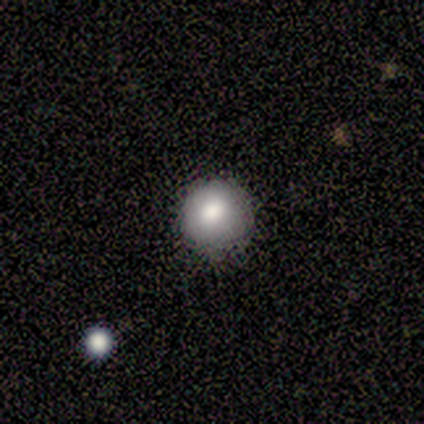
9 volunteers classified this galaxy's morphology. Smooth or featured? smooth (100%)
How rounded? round (89%)
Merging? none (78%)